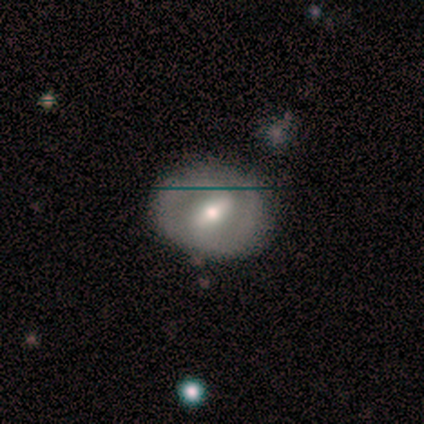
Smooth or featured? 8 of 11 (73%) said featured or disk. Edge-on disk? 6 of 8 (75%) said no. Bar? 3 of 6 (50%) said strong. Spiral arms? 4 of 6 (67%) said no. Bulge size? 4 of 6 (67%) said moderate. Merging? 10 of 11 (91%) said none.